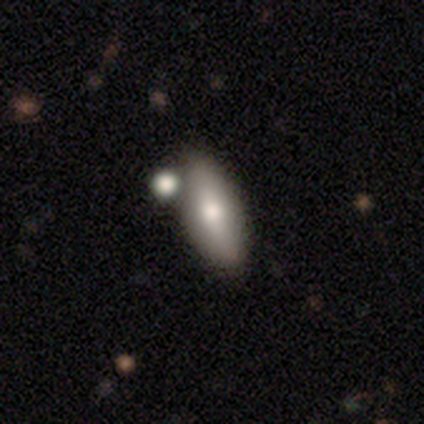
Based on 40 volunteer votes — Overall: smooth (60%; featured or disk 32%). How rounded: in between (62%; cigar-shaped 33%). Merging: none (62%).